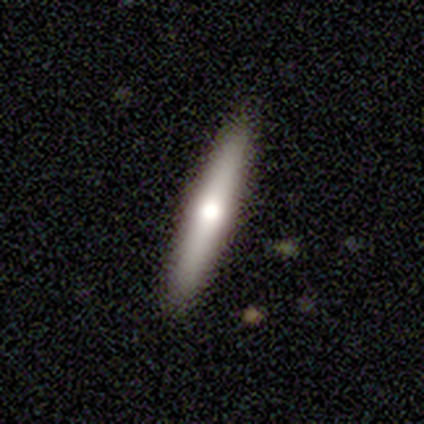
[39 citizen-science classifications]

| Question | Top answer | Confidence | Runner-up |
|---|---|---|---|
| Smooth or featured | featured or disk | 46% | smooth (44%) |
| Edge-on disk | yes | 94% | no (6%) |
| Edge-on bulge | rounded | 88% | boxy (12%) |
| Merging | none | 89% | minor disturbance (11%) |